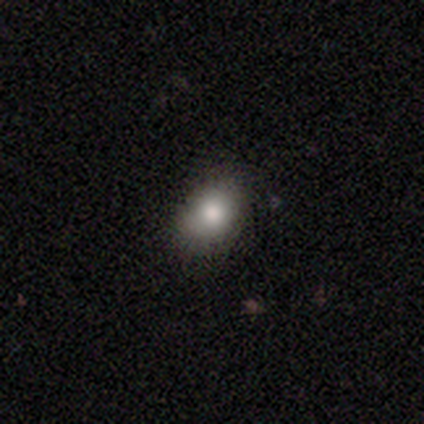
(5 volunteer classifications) Q: Smooth or featured?
A: smooth (80%); runner-up: featured or disk (20%)
Q: How rounded?
A: round (50%); tied with: in between (50%)
Q: Merging?
A: none (80%); runner-up: minor disturbance (20%)